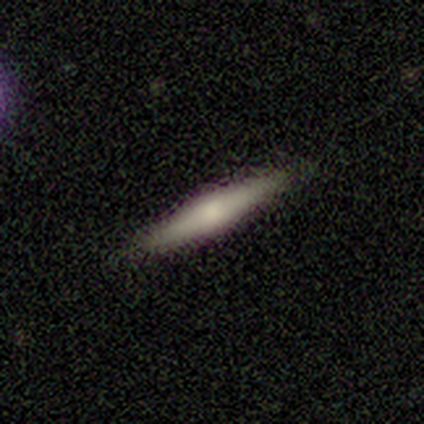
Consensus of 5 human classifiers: smooth_or_featured: featured or disk (p=0.80) [alt: star or artifact p=0.20]
disk_edge_on: yes (p=1.00)
edge_on_bulge: rounded (p=0.50) [alt: boxy p=0.25]
merging: none (p=1.00)